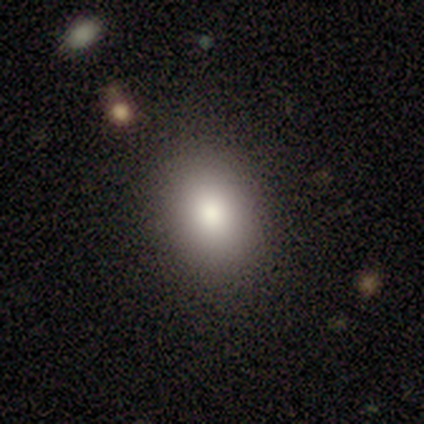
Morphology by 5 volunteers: type=smooth (100%); roundness=in between (60%); merging=none (80%).